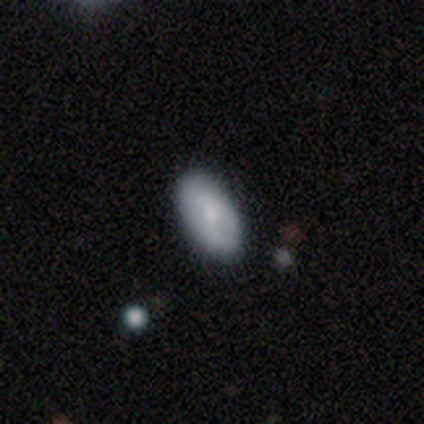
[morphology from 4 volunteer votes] smooth_or_featured: featured or disk (p=0.50) [tied with: star or artifact p=0.50]
disk_edge_on: yes (p=0.50) [tied with: no p=0.50]
edge_on_bulge: rounded (p=1.00)
merging: none (p=1.00)